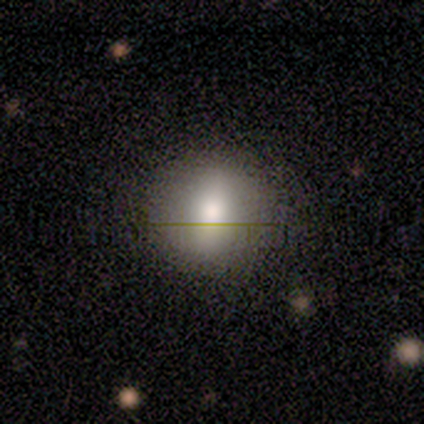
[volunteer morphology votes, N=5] smooth 80%, star or artifact 20%, featured or disk 0%. Down the decision tree: how rounded — round (100%); merging — none (75%).